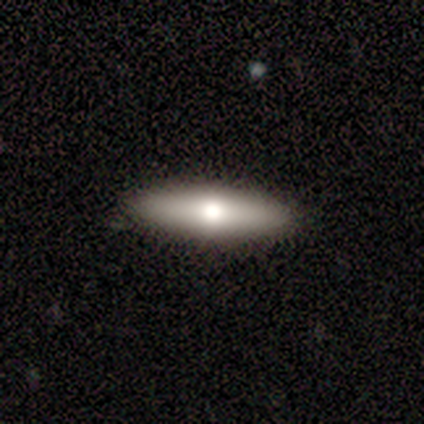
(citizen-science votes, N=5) smooth-or-featured: smooth: 100% | featured or disk: 0% | star or artifact: 0%
  how-rounded: in between: 60% | cigar-shaped: 40% | round: 0%
  merging: none: 80% | minor disturbance: 20% | major disturbance: 0% | merger: 0%